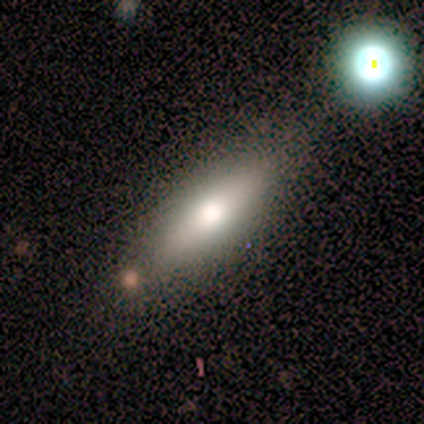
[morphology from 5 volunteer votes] Q: Smooth or featured?
A: featured or disk (80%); runner-up: smooth (20%)
Q: Edge-on disk?
A: yes (75%); runner-up: no (25%)
Q: Edge-on bulge?
A: rounded (100%)
Q: Merging?
A: none (60%); runner-up: minor disturbance (20%)